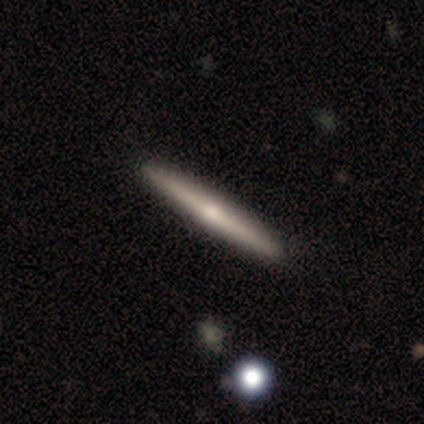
Smooth or featured?
  - featured or disk: 100% *
  - smooth: 0%
  - star or artifact: 0%
Edge-on disk?
  - yes: 100% *
  - no: 0%
Edge-on bulge?
  - rounded: 100% *
  - boxy: 0%
  - none: 0%
Merging?
  - none: 100% *
  - minor disturbance: 0%
  - major disturbance: 0%
  - merger: 0%